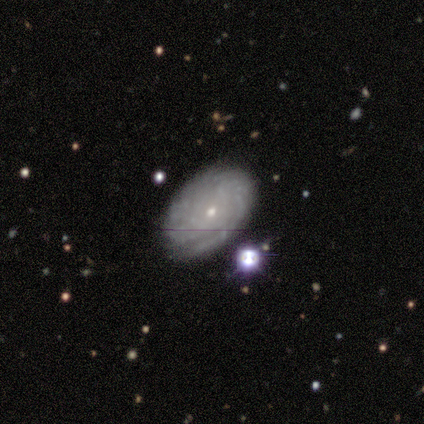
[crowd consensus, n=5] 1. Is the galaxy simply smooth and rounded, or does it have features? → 60% featured or disk, 20% smooth, 20% star or artifact.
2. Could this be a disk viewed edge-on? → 100% no, 0% yes.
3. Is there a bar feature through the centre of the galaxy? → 100% no, 0% strong, 0% weak.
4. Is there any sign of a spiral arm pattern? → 100% yes, 0% no.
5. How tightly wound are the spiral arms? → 67% medium, 33% tight, 0% loose.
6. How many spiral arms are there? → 100% can't tell, 0% 1, 0% 2, 0% 3, 0% 4, 0% more than 4.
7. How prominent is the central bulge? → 100% small, 0% dominant, 0% large, 0% moderate, 0% none.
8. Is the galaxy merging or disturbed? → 75% none, 25% minor disturbance, 0% major disturbance, 0% merger.